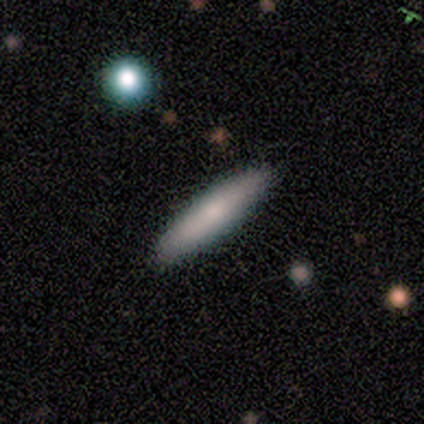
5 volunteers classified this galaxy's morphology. Smooth or featured?
  - smooth: 60% *
  - featured or disk: 40%
  - star or artifact: 0%
How rounded?
  - cigar-shaped: 100% *
  - round: 0%
  - in between: 0%
Merging?
  - none: 100% *
  - minor disturbance: 0%
  - major disturbance: 0%
  - merger: 0%